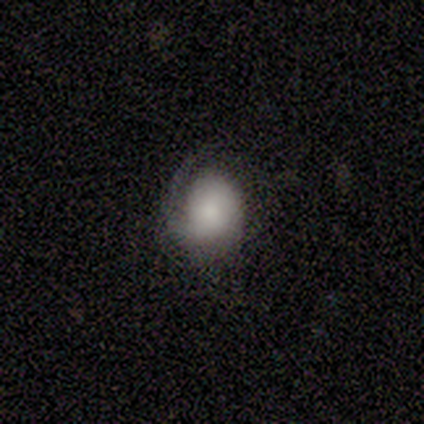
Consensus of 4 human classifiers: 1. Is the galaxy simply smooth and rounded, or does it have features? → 75% featured or disk, 25% smooth, 0% star or artifact.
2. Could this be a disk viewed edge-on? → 100% no, 0% yes.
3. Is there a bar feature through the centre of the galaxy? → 67% no, 33% weak, 0% strong.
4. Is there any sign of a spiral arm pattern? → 100% yes, 0% no.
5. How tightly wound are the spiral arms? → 33% tight (tied), 33% medium (tied), 33% loose (tied).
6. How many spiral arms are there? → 100% 1, 0% 2, 0% 3, 0% 4, 0% more than 4, 0% can't tell.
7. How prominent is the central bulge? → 67% large, 33% small, 0% dominant, 0% moderate, 0% none.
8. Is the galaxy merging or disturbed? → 50% minor disturbance, 25% none, 25% major disturbance, 0% merger.